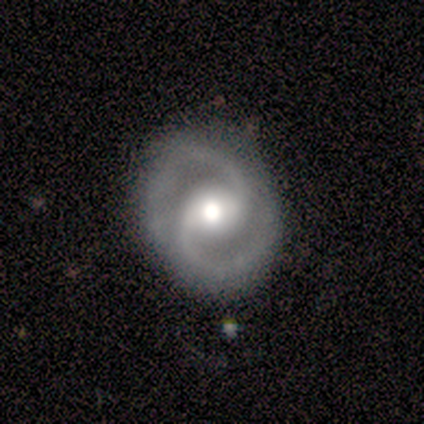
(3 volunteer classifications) Smooth or featured: featured or disk — 100%
Edge-on disk: no — 100%
Bar: weak — 100%
Spiral arms: yes — 100%
Spiral winding: medium — 100%
Spiral arm count: 2 — 100%
Bulge size: moderate — 100%
Merging: none — 100%